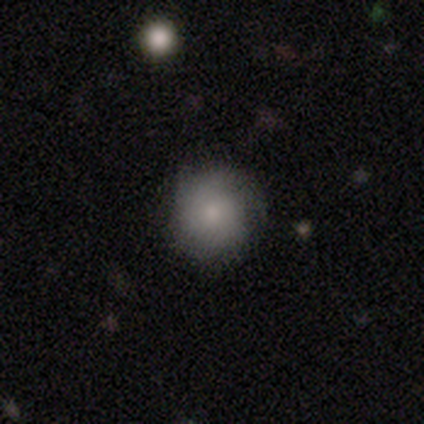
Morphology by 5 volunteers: This appears to be a smooth galaxy with no disk features (60%) that is round (67%). Merging: none (80%).